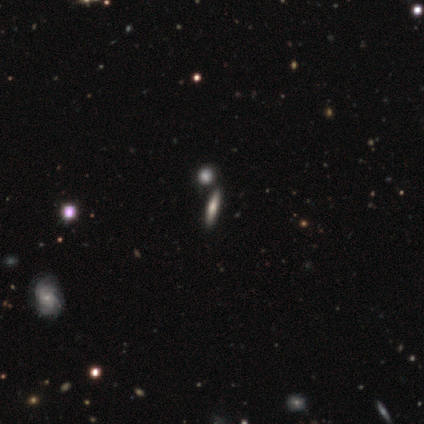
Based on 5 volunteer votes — smooth_or_featured: smooth (p=1.00)
how_rounded: cigar-shaped (p=0.60) [alt: in between p=0.40]
merging: none (p=0.80) [alt: major disturbance p=0.20]